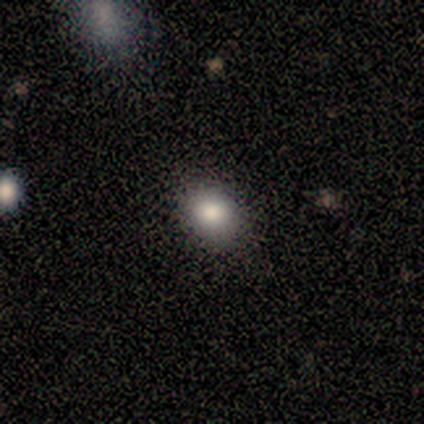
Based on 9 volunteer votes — This is likely a smooth galaxy (67%). How rounded: likely round (67%). Merging: clearly none (100%).